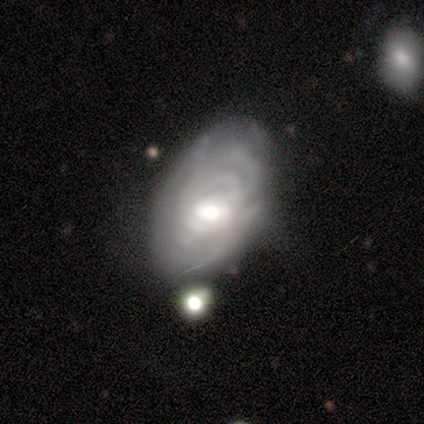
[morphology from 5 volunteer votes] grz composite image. It shows a featured or disk galaxy (80%) with no bar (75%), tight (100%) spiral arms (75%) and a moderate central bulge (75%). Merging: none (60%).